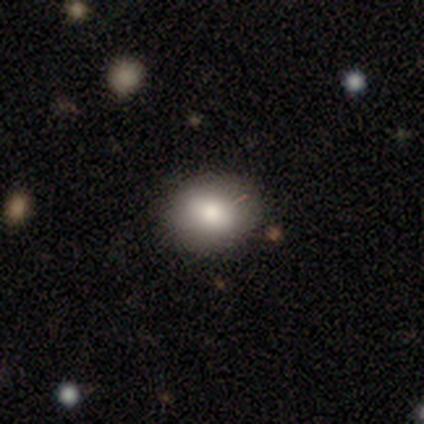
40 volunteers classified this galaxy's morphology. Volunteers were most divided on "how rounded": round: 56%, in between: 44%, cigar-shaped: 0%. More confident: merging — none (89%); smooth or featured — smooth (80%).